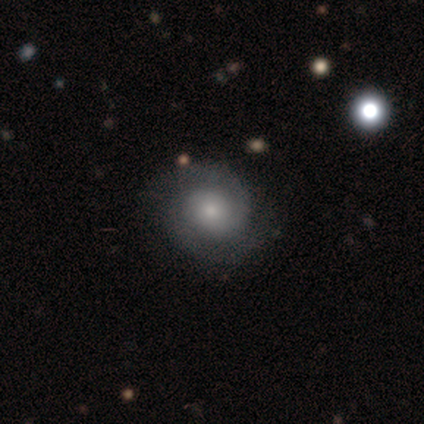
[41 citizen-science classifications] A featured or disk galaxy (71%) with no bar (85%), 2 (92%) tight (50%) spiral arms (92%) and a small central bulge (46%). Merging: none (87%).